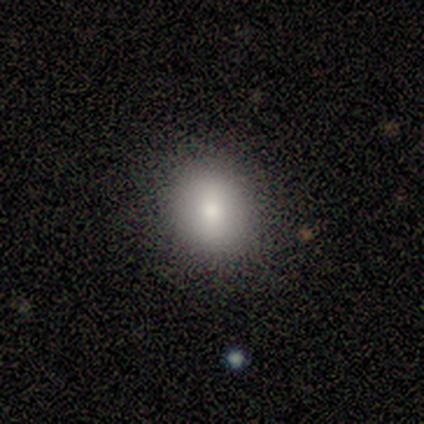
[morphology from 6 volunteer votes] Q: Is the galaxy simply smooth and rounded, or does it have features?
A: smooth — 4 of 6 (67%).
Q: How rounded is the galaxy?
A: round — 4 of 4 (100%).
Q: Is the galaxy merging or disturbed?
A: none — 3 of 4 (75%).